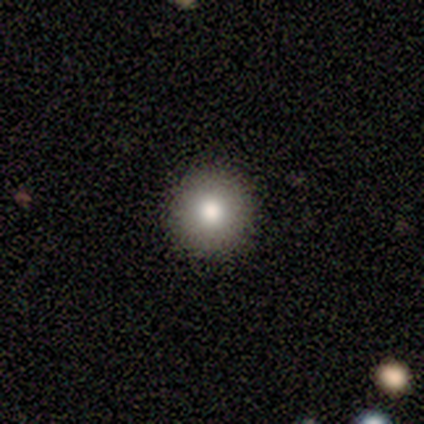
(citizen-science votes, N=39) A smooth galaxy with no disk features (82%) that is round (94%).

Vote fractions:
- Smooth or featured? smooth: 82% / featured or disk: 15% / star or artifact: 3%
- How rounded? round: 94% / in between: 6% / cigar-shaped: 0%
- Merging? none: 97% / minor disturbance: 3% / major disturbance: 0% / merger: 0%